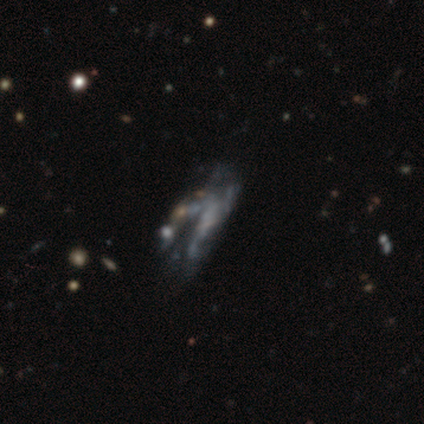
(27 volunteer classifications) featured or disk 56%, star or artifact 33%, smooth 11%. Down the decision tree: edge-on disk — no (93%); bar — no (93%); spiral arms — no (79%); bulge size — none (79%); merging — minor disturbance (33%, tied with major disturbance).